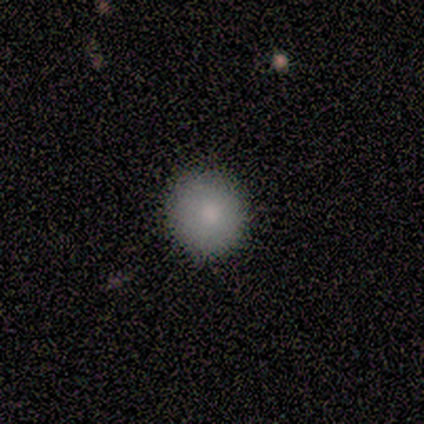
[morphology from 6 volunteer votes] Smooth or featured?
  - smooth: 100% *
  - featured or disk: 0%
  - star or artifact: 0%
How rounded?
  - round: 83% *
  - in between: 17%
  - cigar-shaped: 0%
Merging?
  - none: 100% *
  - minor disturbance: 0%
  - major disturbance: 0%
  - merger: 0%